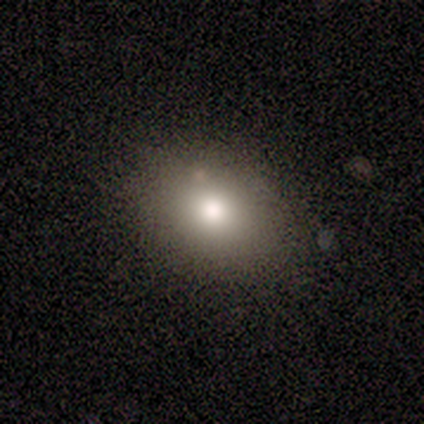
Overall: smooth (63%). How rounded: in between (55%; round 45%). Merging: none (85%).